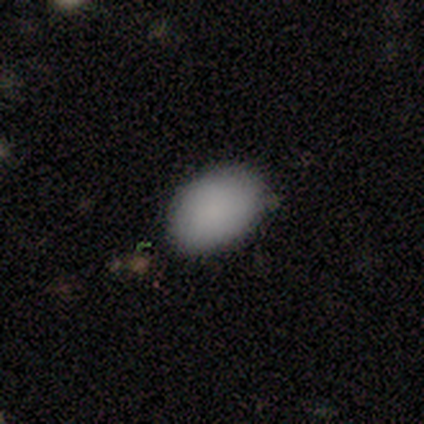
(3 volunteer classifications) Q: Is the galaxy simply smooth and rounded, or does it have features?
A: smooth — 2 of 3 (67%).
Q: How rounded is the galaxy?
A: in between — 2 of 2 (100%).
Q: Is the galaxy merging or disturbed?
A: none — 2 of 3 (67%).